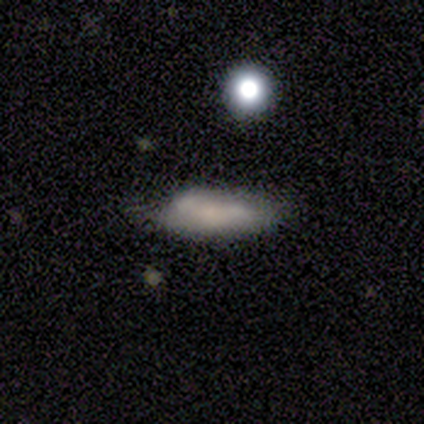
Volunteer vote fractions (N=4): Q: Smooth or featured?
A: smooth (75%); runner-up: featured or disk (25%)
Q: How rounded?
A: cigar-shaped (67%); runner-up: in between (33%)
Q: Merging?
A: minor disturbance (75%); runner-up: major disturbance (25%)